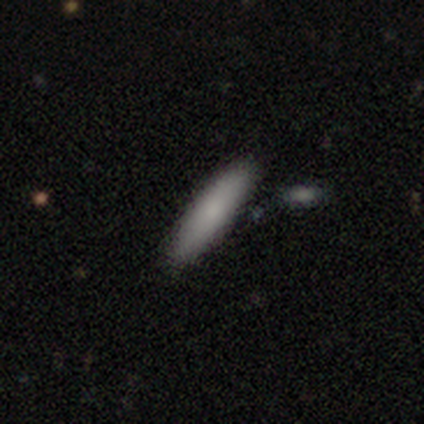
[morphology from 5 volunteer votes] Smooth or featured? smooth (100%)
How rounded? cigar-shaped (80%)
Merging? minor disturbance (60%)